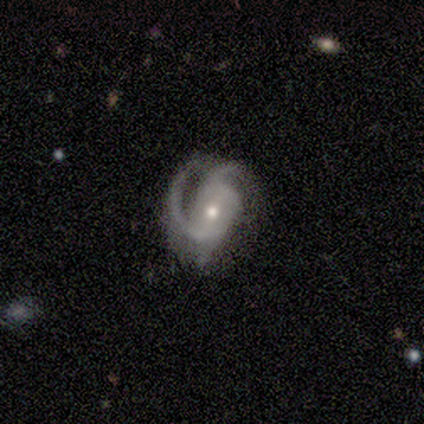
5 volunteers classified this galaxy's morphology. featured or disk 100%, smooth 0%, star or artifact 0%. Down the decision tree: edge-on disk — no (80%); bar — no (50%); spiral arms — yes (100%); spiral arm count — 2 (50%); spiral winding — tight (50%, tied with medium); bulge size — moderate (50%, tied with small); merging — major disturbance (40%).